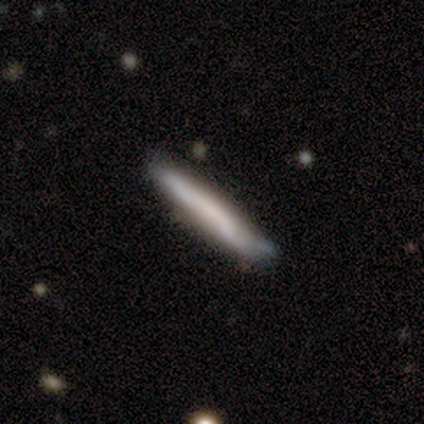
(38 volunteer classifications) smooth 58%, featured or disk 37%, star or artifact 5%. Down the decision tree: how rounded — cigar-shaped (100%); merging — none (61%).